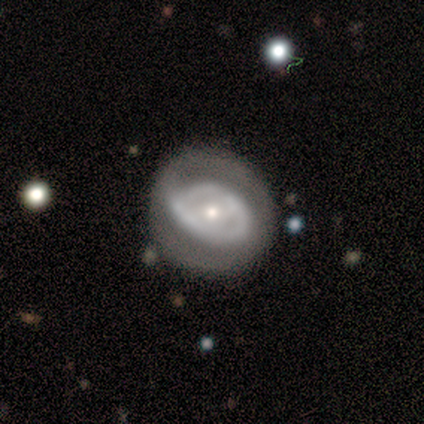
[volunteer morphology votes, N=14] Smooth or featured?
  - featured or disk: 71% *
  - smooth: 29%
  - star or artifact: 0%
Edge-on disk?
  - no: 100% *
  - yes: 0%
Bar?
  - weak: 70% *
  - no: 20%
  - strong: 10%
Spiral arms?
  - yes: 50% * (tied)
  - no: 50% * (tied)
Spiral winding?
  - tight: 60% *
  - medium: 20%
  - loose: 20%
Spiral arm count?
  - can't tell: 60% *
  - 2: 40%
  - 1: 0%
  - 3: 0%
  - 4: 0%
  - more than 4: 0%
Bulge size?
  - moderate: 40% * (tied)
  - small: 40% * (tied)
  - large: 20%
  - dominant: 0%
  - none: 0%
Merging?
  - none: 64% *
  - minor disturbance: 21%
  - major disturbance: 14%
  - merger: 0%